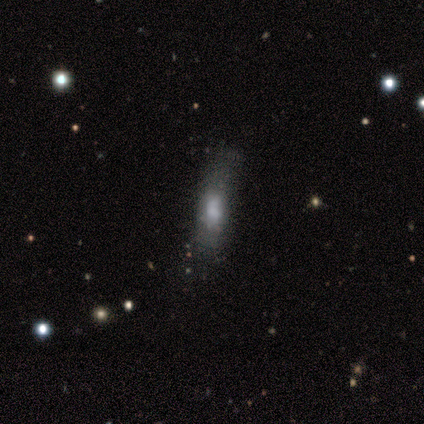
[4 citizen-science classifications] This is likely a featured or disk galaxy (75%). It is clearly not viewed edge-on (100%). Bar: likely no (67%). Spiral arm pattern: clearly no (100%). Central bulge: likely none (67%). Merging: possibly none (50%).